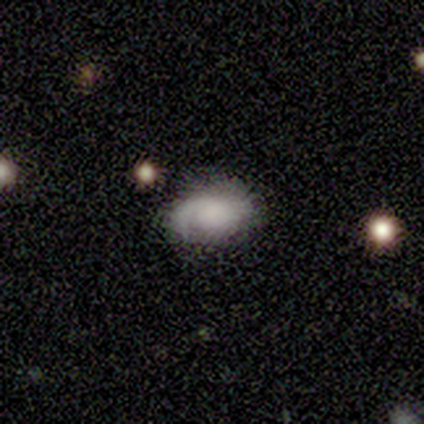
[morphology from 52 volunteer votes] A featured or disk galaxy (58%) with no bar (77%), 1 (67%) medium (56%) spiral arms (90%) and no central bulge (40%). Merging: none (65%).